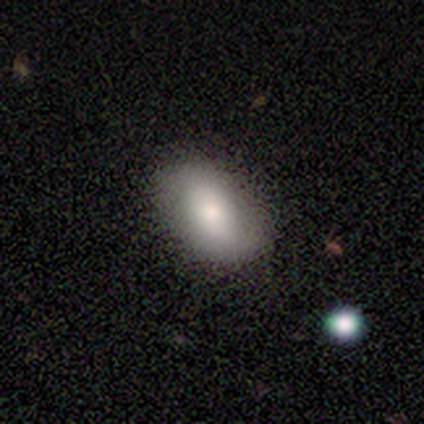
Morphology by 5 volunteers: smooth 80%, star or artifact 20%, featured or disk 0%. Down the decision tree: how rounded — in between (100%); merging — none (100%).